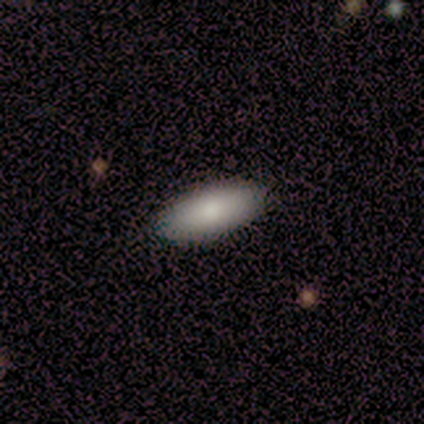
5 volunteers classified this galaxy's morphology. smooth_or_featured: smooth (p=1.00)
how_rounded: cigar-shaped (p=0.60) [alt: in between p=0.40]
merging: none (p=1.00)